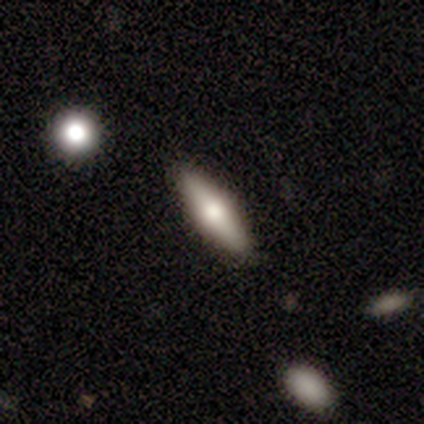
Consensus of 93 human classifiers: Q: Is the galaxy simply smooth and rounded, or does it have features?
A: smooth — 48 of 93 (52%).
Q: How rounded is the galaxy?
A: cigar-shaped — 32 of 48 (67%).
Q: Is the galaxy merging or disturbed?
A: none — 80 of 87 (92%).